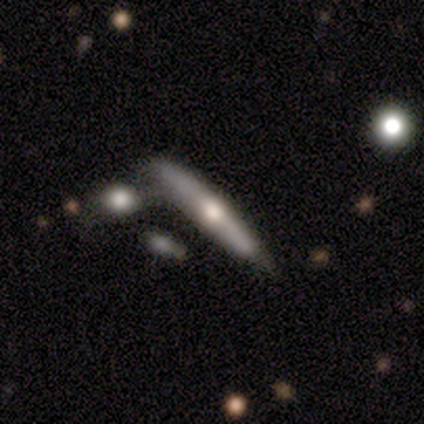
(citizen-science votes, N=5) smooth_or_featured: featured or disk (p=0.80) [alt: smooth p=0.20]
disk_edge_on: yes (p=1.00)
edge_on_bulge: rounded (p=1.00)
merging: merger (p=0.60) [alt: minor disturbance p=0.40]